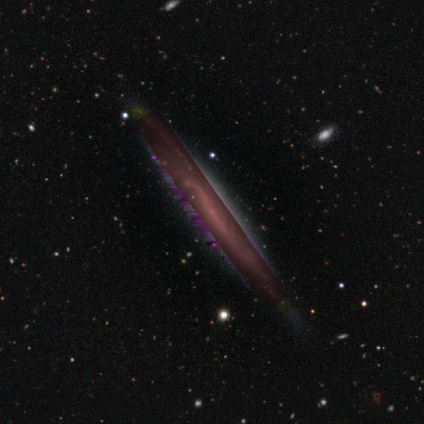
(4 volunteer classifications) Morphology: type=star or artifact (75%).